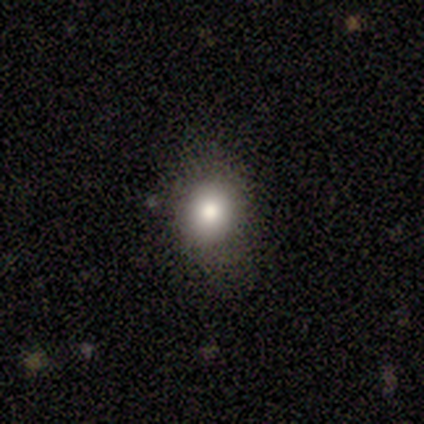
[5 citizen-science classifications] Morphology: type=smooth (100%); roundness=round (80%); merging=none (80%).